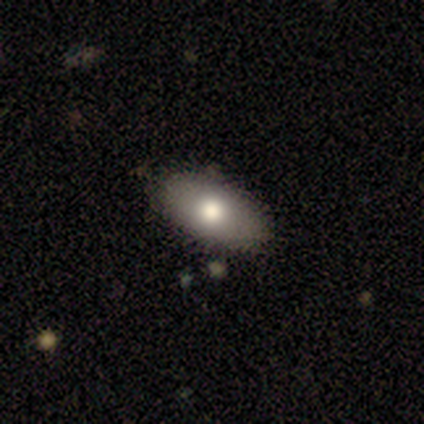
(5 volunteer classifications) Smooth or featured?
  - smooth: 80% *
  - featured or disk: 20%
  - star or artifact: 0%
How rounded?
  - in between: 100% *
  - round: 0%
  - cigar-shaped: 0%
Merging?
  - none: 80% *
  - major disturbance: 20%
  - minor disturbance: 0%
  - merger: 0%